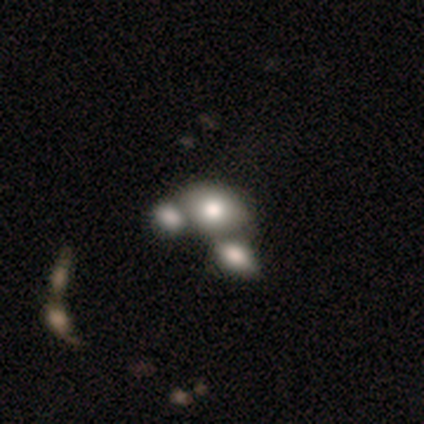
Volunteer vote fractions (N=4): Smooth or featured?
  - smooth: 75% *
  - featured or disk: 25%
  - star or artifact: 0%
How rounded?
  - in between: 67% *
  - round: 33%
  - cigar-shaped: 0%
Merging?
  - merger: 75% *
  - none: 25%
  - minor disturbance: 0%
  - major disturbance: 0%